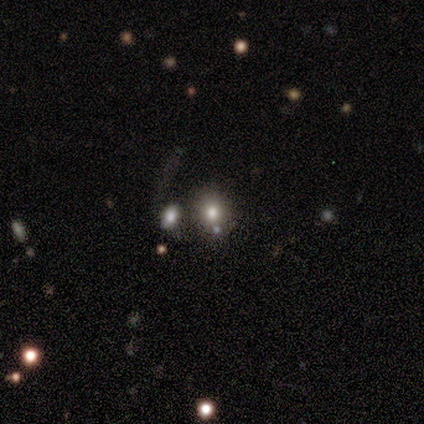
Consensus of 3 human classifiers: Smooth or featured? smooth (100%)
How rounded? round (100%)
Merging? none (67%)